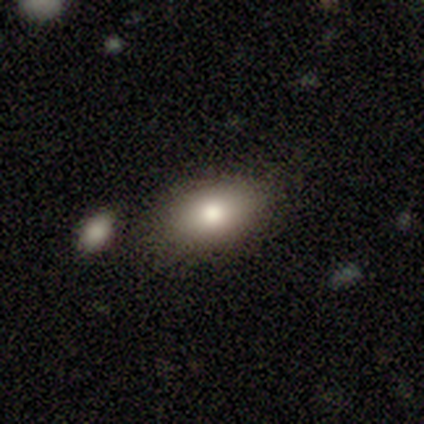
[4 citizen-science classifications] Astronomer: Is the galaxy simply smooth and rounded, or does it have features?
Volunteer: featured or disk — 75%.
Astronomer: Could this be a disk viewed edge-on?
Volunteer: no — 100%.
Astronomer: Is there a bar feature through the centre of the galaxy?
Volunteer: no — 100%.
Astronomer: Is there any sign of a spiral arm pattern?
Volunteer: no — 100%.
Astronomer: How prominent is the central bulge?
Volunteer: dominant — 33%, tied with large and moderate at 33%.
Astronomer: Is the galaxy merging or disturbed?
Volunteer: none — 100%.